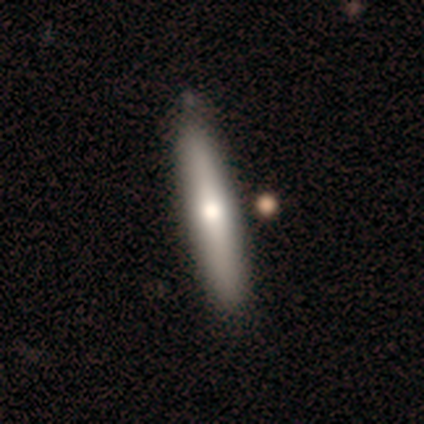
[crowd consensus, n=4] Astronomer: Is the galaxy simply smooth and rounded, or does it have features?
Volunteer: smooth — 75%.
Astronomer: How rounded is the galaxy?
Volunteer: cigar-shaped — 100%.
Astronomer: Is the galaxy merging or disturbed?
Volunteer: none — 100%.